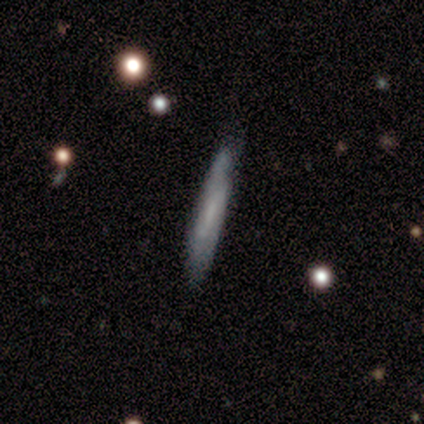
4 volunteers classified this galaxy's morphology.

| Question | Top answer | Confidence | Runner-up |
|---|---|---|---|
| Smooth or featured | featured or disk | 50% | smooth (25%) |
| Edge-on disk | yes | 50% | tied: no (50%) |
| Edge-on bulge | none | 100% | — |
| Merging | none | 100% | — |